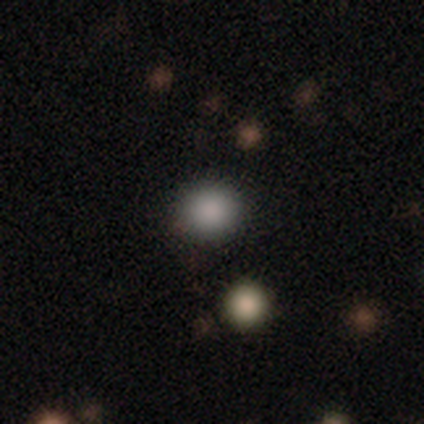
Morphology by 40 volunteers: This is likely a smooth galaxy (75%). How rounded: clearly round (80%). Merging: clearly none (91%).